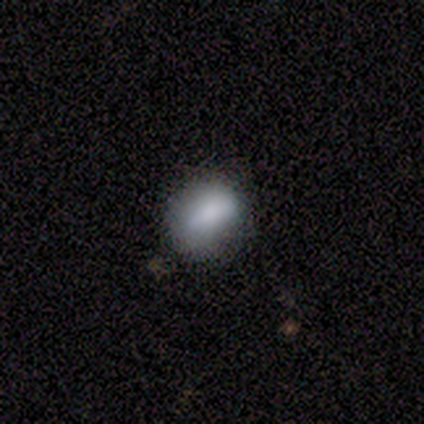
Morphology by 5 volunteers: Q: Smooth or featured?
A: smooth (100%)
Q: How rounded?
A: in between (80%); runner-up: round (20%)
Q: Merging?
A: none (80%); runner-up: minor disturbance (20%)